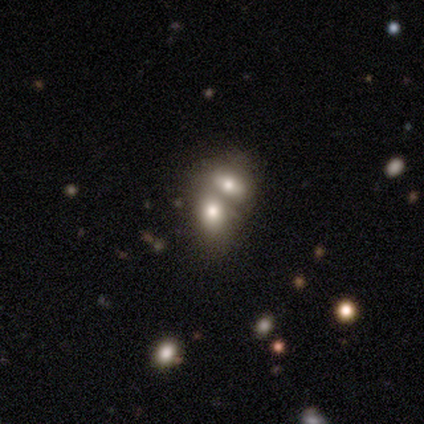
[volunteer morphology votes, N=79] Smooth or featured? 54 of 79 (68%) said smooth. How rounded? 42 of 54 (78%) said in between. Merging? 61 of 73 (84%) said merger.